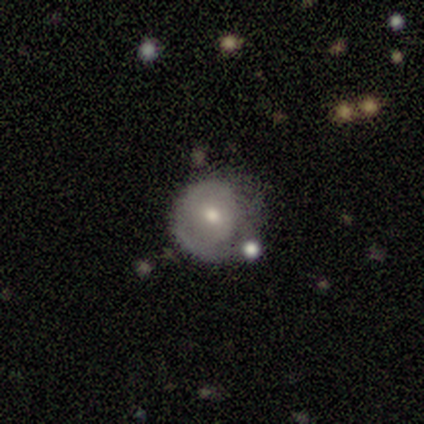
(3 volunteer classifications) A smooth galaxy with no disk features (67%) that is round (100%).

Vote fractions:
- Smooth or featured? smooth: 67% / star or artifact: 33% / featured or disk: 0%
- How rounded? round: 100% / in between: 0% / cigar-shaped: 0%
- Merging? minor disturbance: 50% (tied) / major disturbance: 50% (tied) / none: 0% / merger: 0%